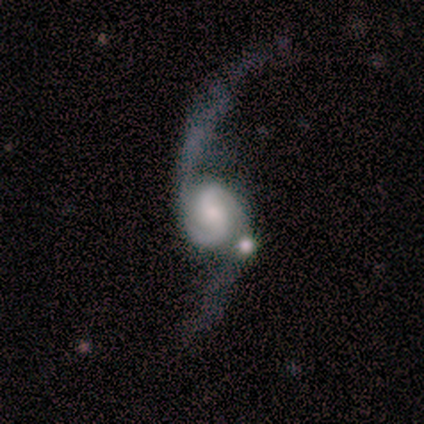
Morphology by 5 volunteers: This is clearly a featured or disk galaxy (80%). It is clearly not viewed edge-on (100%). Bar: likely weak (75%). Spiral arm pattern: clearly yes (100%). Spiral arm count: clearly 2 (100%). Spiral winding: possibly tight (50%). Central bulge: possibly large (50%). Merging: marginally minor disturbance (40%).